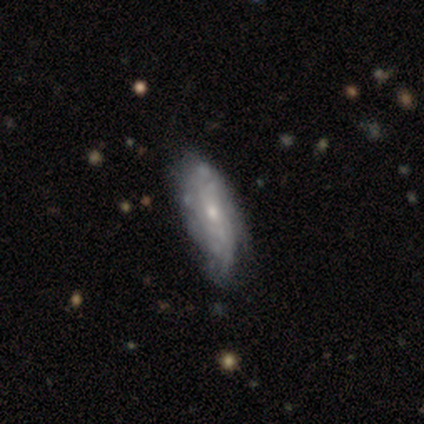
Morphology: type=featured or disk (82%); edge-on=no (84%); bar=no (85%); spiral arms=yes (62%); winding=tight (56%); arm count=can't tell (88%); bulge=small (58%); merging=minor disturbance (42%).